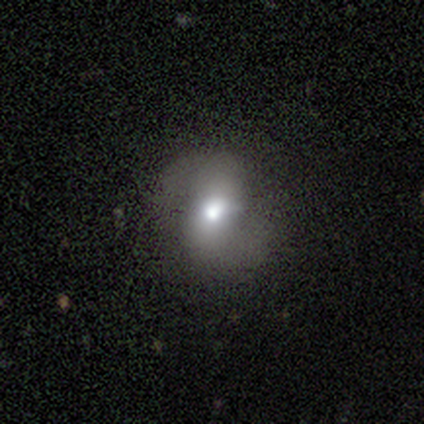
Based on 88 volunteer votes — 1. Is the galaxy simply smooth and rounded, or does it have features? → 45% featured or disk, 42% smooth, 12% star or artifact.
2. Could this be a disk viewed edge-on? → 98% no, 2% yes.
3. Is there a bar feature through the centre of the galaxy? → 38% strong, 31% weak, 31% no.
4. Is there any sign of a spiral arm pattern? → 79% yes, 21% no.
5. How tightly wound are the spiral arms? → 52% loose, 35% medium, 13% tight.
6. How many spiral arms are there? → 100% 2, 0% 1, 0% 3, 0% 4, 0% more than 4, 0% can't tell.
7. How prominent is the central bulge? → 67% moderate, 15% large, 13% small, 3% dominant, 3% none.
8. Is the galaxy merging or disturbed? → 68% none, 19% minor disturbance, 12% major disturbance, 1% merger.